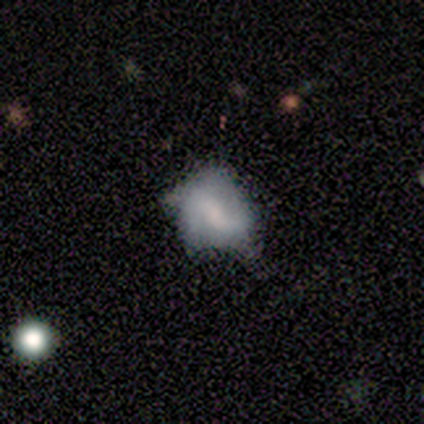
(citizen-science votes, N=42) A featured or disk galaxy (76%) with a weak bar (56%), 2 (82%) loose (41%) spiral arms (69%) and a moderate central bulge (47%).

Vote fractions:
- Smooth or featured? featured or disk: 76% / smooth: 17% / star or artifact: 7%
- Edge-on disk? no: 100% / yes: 0%
- Bar? weak: 56% / strong: 25% / no: 19%
- Spiral arms? yes: 69% / no: 31%
- Spiral winding? loose: 41% / medium: 36% / tight: 23%
- Spiral arm count? 2: 82% / can't tell: 18% / 1: 0% / 3: 0% / 4: 0% / more than 4: 0%
- Bulge size? moderate: 47% / small: 25% / none: 22% / large: 6% / dominant: 0%
- Merging? major disturbance: 38% / minor disturbance: 33% / none: 26% / merger: 3%